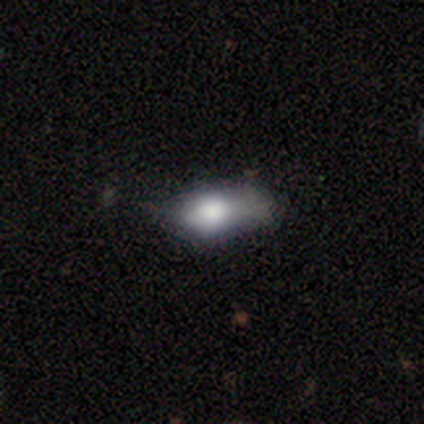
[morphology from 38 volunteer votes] Overall: smooth (74%). How rounded: in between (68%). Merging: minor disturbance (38%; major disturbance 19%).